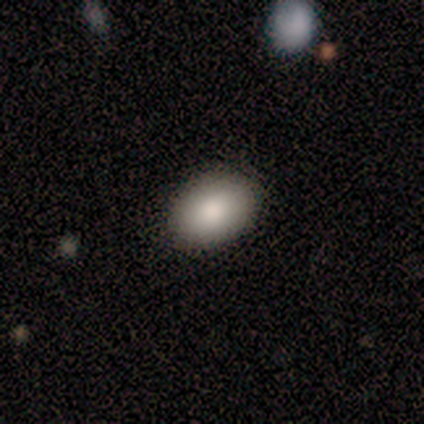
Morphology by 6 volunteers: Volunteers were most divided on "how rounded": in between: 83%, round: 17%, cigar-shaped: 0%. More confident: smooth or featured — smooth (100%); merging — none (100%).